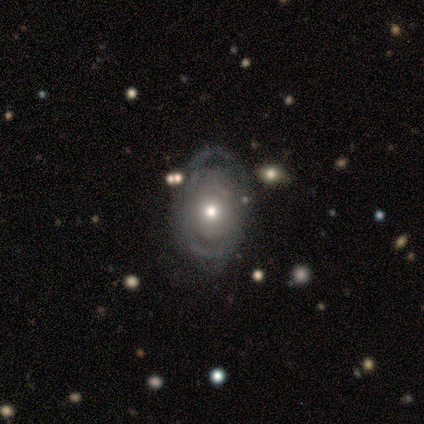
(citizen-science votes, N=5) smooth-or-featured: featured or disk: 100% | smooth: 0% | star or artifact: 0%
  disk-edge-on: no: 100% | yes: 0%
    bar: no: 80% | weak: 20% | strong: 0%
    has-spiral-arms: yes: 60% | no: 40%
      spiral-winding: medium: 67% | tight: 33% | loose: 0%
      spiral-arm-count: 2: 67% | can't tell: 33% | 1: 0% | 3: 0% | 4: 0% | more than 4: 0%
    bulge-size: moderate: 80% | small: 20% | dominant: 0% | large: 0% | none: 0%
  merging: none: 80% | minor disturbance: 20% | major disturbance: 0% | merger: 0%